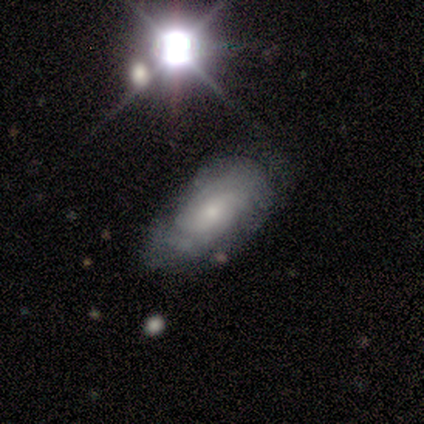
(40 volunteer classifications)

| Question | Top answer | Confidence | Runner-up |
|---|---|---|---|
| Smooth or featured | featured or disk | 60% | smooth (25%) |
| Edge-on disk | no | 92% | yes (8%) |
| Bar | no | 82% | weak (18%) |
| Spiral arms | yes | 86% | no (14%) |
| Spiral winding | tight | 68% | medium (21%) |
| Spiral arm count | can't tell | 47% | 2 (42%) |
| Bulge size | small | 68% | moderate (18%) |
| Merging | none | 62% | minor disturbance (32%) |